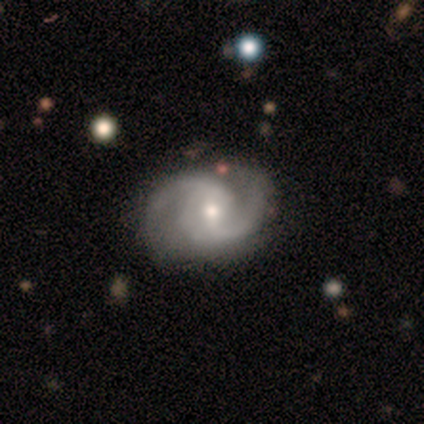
Q: Smooth or featured?
A: featured or disk (80%); runner-up: star or artifact (20%)
Q: Edge-on disk?
A: no (100%)
Q: Bar?
A: no (75%); runner-up: weak (25%)
Q: Spiral arms?
A: yes (100%)
Q: Spiral winding?
A: medium (50%); tied with: loose (50%)
Q: Spiral arm count?
A: 2 (75%); runner-up: 1 (25%)
Q: Bulge size?
A: moderate (50%); tied with: small (50%)
Q: Merging?
A: minor disturbance (50%); runner-up: none (25%)